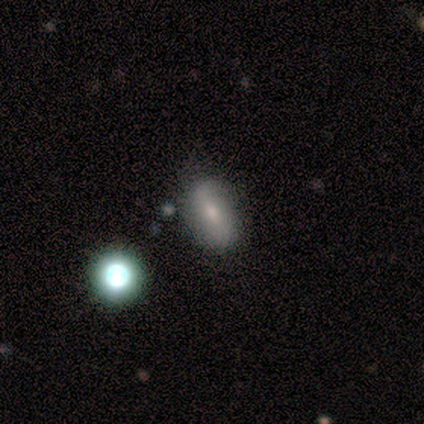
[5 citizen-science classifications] This is likely a smooth galaxy (60%). How rounded: clearly in between (100%). Merging: clearly none (100%).